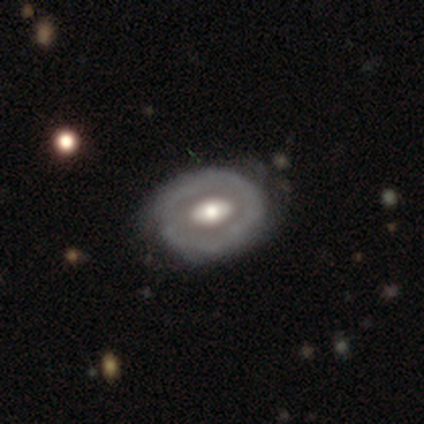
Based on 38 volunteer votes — Overall: featured or disk (76%). Edge-on disk: no (90%). Bar: no (54%; strong 23%). Spiral arms: no (85%). Bulge size: moderate (50%; large 35%). Merging: none (74%).